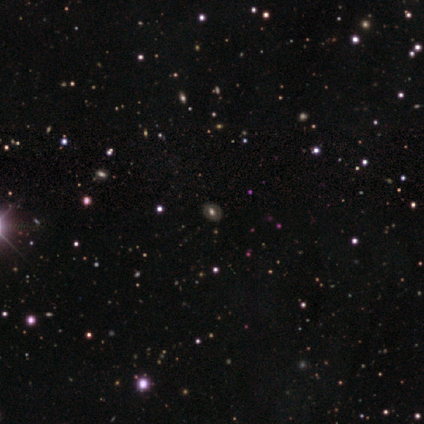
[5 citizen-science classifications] A featured or disk galaxy (40%, tied with star or artifact) with no bar (100%), no spiral arms (100%) and a large central bulge (50%, tied with moderate).

Vote fractions:
- Smooth or featured? featured or disk: 40% (tied) / star or artifact: 40% (tied) / smooth: 20%
- Edge-on disk? no: 100% / yes: 0%
- Bar? no: 100% / strong: 0% / weak: 0%
- Spiral arms? no: 100% / yes: 0%
- Bulge size? large: 50% (tied) / moderate: 50% (tied) / dominant: 0% / small: 0% / none: 0%
- Merging? none: 100% / minor disturbance: 0% / major disturbance: 0% / merger: 0%